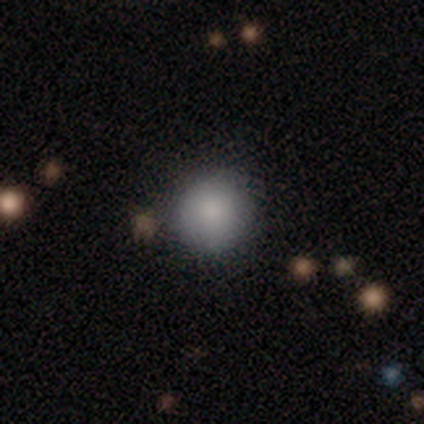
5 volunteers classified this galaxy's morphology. Q: Smooth or featured?
A: smooth (60%); runner-up: featured or disk (40%)
Q: How rounded?
A: round (100%)
Q: Merging?
A: none (60%); runner-up: minor disturbance (20%)